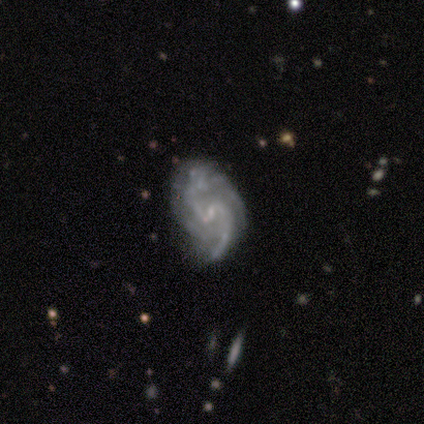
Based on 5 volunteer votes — Q: Smooth or featured?
A: featured or disk (100%)
Q: Edge-on disk?
A: no (100%)
Q: Bar?
A: weak (80%); runner-up: strong (20%)
Q: Spiral arms?
A: yes (100%)
Q: Spiral winding?
A: medium (40%); tied with: loose (40%)
Q: Spiral arm count?
A: 2 (60%); runner-up: 1 (20%)
Q: Bulge size?
A: small (60%); runner-up: moderate (20%)
Q: Merging?
A: none (60%); runner-up: minor disturbance (20%)